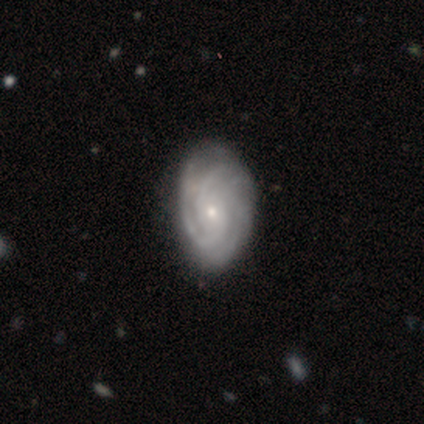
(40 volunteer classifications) Overall: featured or disk (80%). Edge-on disk: no (97%). Bar: no (55%; weak 32%). Spiral arms: yes (97%). Spiral arm count: 3 (33%; 4 20%). Spiral winding: tight (73%). Bulge size: small (81%). Merging: none (79%).